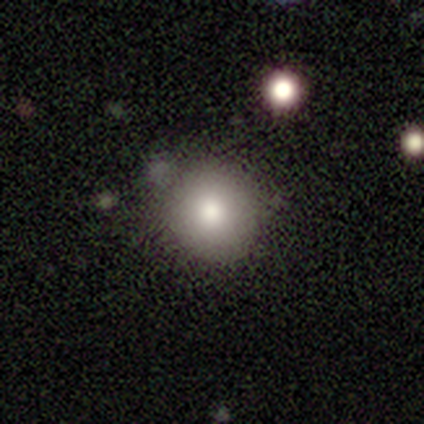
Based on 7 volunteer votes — Volunteers were most divided on "merging" (2-way tie): none: 50%, minor disturbance: 50%, major disturbance: 0%, merger: 0%. More confident: how rounded — round (75%); smooth or featured — smooth (57%).